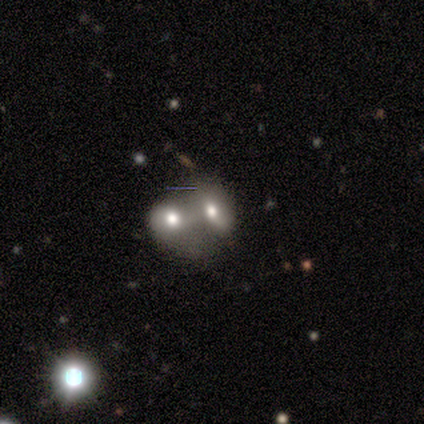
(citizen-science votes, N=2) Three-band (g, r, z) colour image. It shows a featured or disk galaxy (50%, tied with star or artifact) with a strong bar (100%), no spiral arms (100%) and a moderate central bulge (100%). Merging: merger (100%).